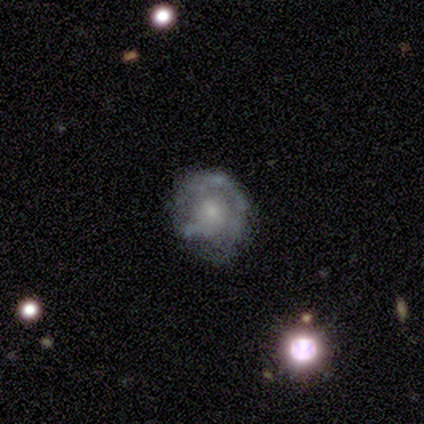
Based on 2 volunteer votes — A featured or disk galaxy (100%) with no bar (100%), 1 (100%) tight (100%) spiral arms (50%, tied with no) and a moderate central bulge (50%, tied with none). Merging: none (50%, tied with minor disturbance).